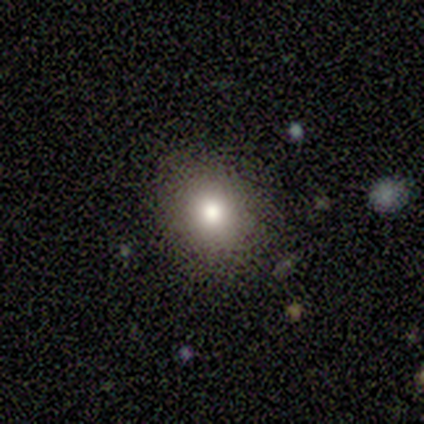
smooth_or_featured: smooth (p=0.75) [alt: featured or disk p=0.12]
how_rounded: round (p=0.83) [alt: in between p=0.17]
merging: none (p=1.00)